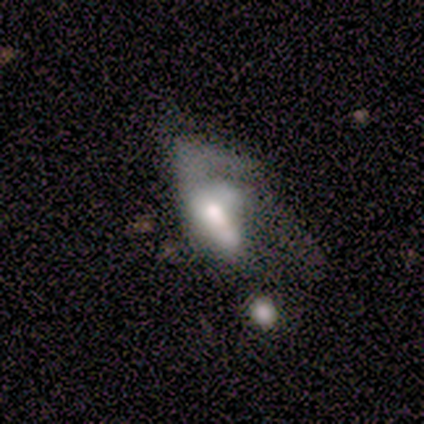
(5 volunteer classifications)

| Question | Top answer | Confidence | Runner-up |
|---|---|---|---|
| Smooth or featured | smooth | 60% | featured or disk (40%) |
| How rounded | in between | 100% | — |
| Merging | major disturbance | 80% | none (20%) |